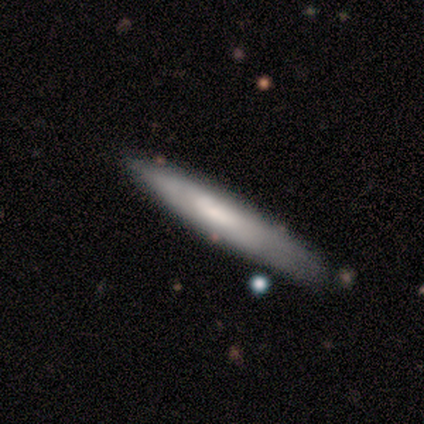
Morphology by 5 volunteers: A smooth galaxy with no disk features (80%) that is cigar-shaped (100%).

Vote fractions:
- Smooth or featured? smooth: 80% / featured or disk: 20% / star or artifact: 0%
- How rounded? cigar-shaped: 100% / round: 0% / in between: 0%
- Merging? none: 60% / minor disturbance: 20% / major disturbance: 20% / merger: 0%